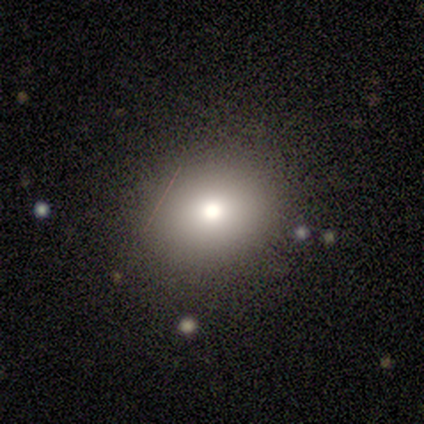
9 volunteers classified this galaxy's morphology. Overall: smooth (78%). How rounded: round (100%). Merging: none (57%; major disturbance 29%).